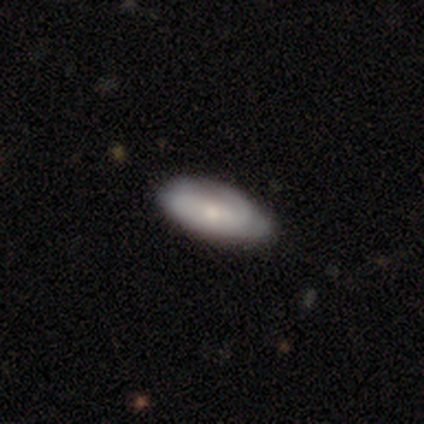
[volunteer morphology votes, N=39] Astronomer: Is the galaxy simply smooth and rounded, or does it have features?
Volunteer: smooth — 67%.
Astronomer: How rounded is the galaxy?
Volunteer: in between — 81%.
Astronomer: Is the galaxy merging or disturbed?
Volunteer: none — 61%.